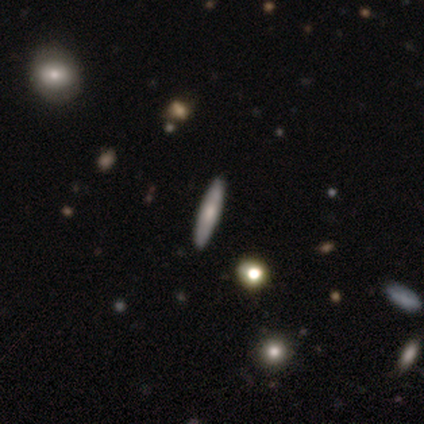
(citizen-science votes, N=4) Smooth or featured?
  - smooth: 50% * (tied)
  - featured or disk: 50% * (tied)
  - star or artifact: 0%
How rounded?
  - cigar-shaped: 100% *
  - round: 0%
  - in between: 0%
Merging?
  - none: 100% *
  - minor disturbance: 0%
  - major disturbance: 0%
  - merger: 0%